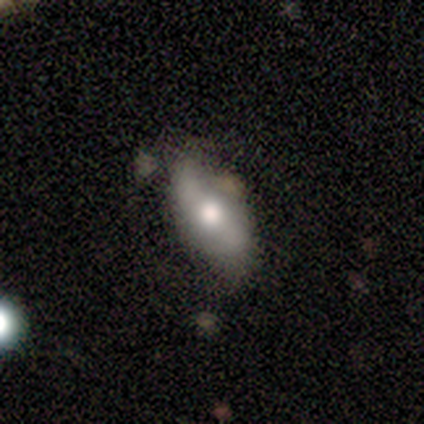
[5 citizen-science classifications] Smooth or featured? 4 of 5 (80%) said featured or disk. Edge-on disk? 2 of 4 (50%, tied with no) said yes. Edge-on bulge? 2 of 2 (100%) said rounded. Merging? 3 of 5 (60%) said none.